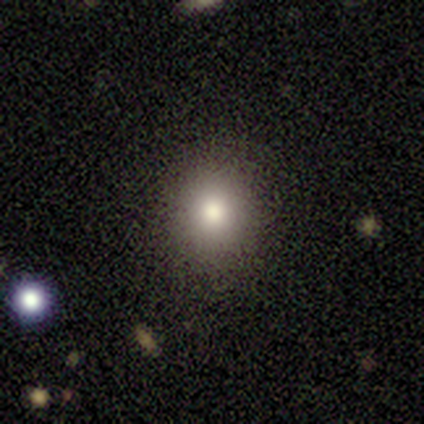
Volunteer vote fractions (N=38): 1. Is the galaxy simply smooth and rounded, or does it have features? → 71% smooth, 26% star or artifact, 3% featured or disk.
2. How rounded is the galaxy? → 85% round, 15% in between, 0% cigar-shaped.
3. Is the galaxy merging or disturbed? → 96% none, 4% minor disturbance, 0% major disturbance, 0% merger.